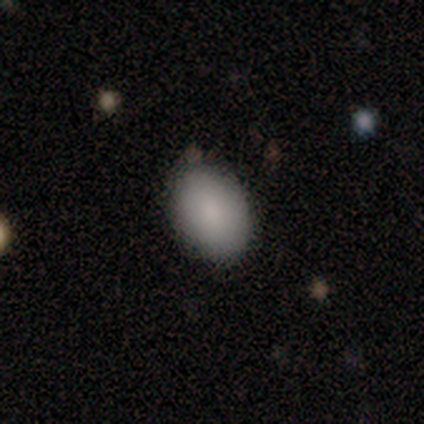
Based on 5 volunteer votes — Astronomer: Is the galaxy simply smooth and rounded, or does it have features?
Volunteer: smooth — 100%.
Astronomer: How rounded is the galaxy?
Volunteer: in between — 100%.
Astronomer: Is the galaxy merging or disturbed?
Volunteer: none — 80%.